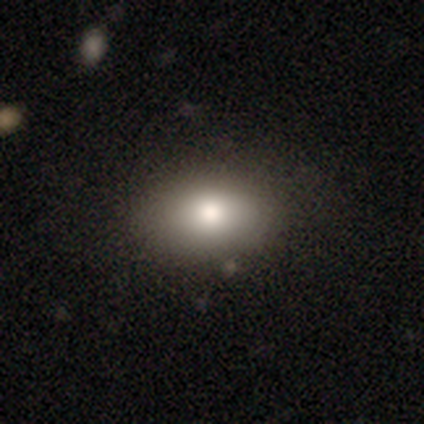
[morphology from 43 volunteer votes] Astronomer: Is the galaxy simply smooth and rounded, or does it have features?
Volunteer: smooth — 88%.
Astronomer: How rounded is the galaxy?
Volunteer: in between — 74%.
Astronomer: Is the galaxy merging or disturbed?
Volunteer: none — 78%.